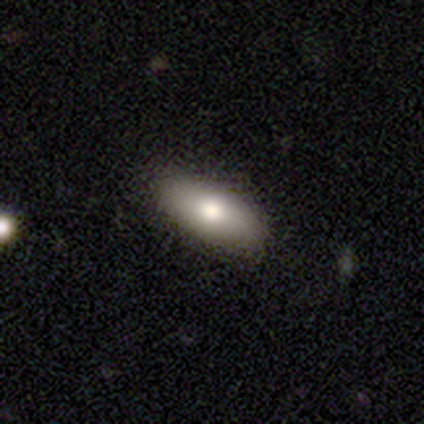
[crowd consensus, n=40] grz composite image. It shows a smooth galaxy with no disk features (70%) that is in between round and cigar-shaped (79%). Merging: none (91%).